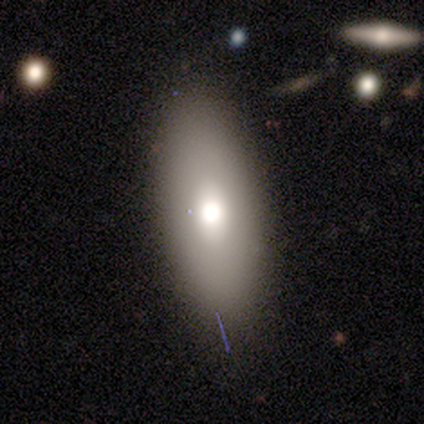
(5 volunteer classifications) Smooth or featured? smooth (80%)
How rounded? in between (50%, tied with cigar-shaped)
Merging? none (80%)